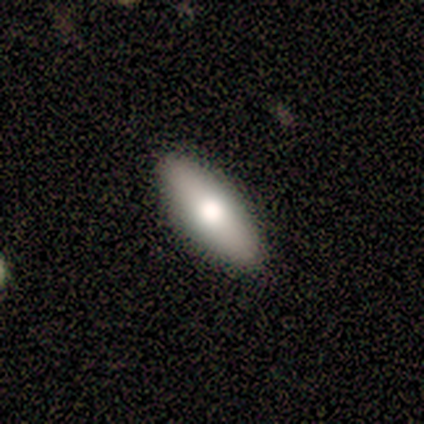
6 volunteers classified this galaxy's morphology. smooth 100%, featured or disk 0%, star or artifact 0%. Down the decision tree: how rounded — in between (67%); merging — none (83%).